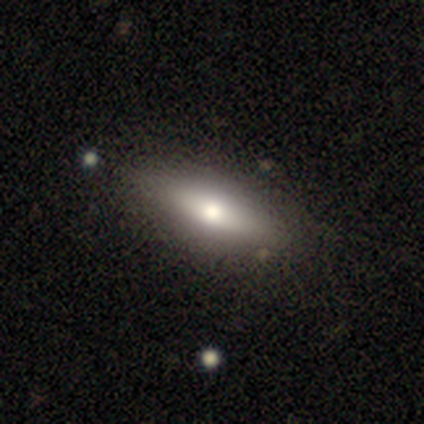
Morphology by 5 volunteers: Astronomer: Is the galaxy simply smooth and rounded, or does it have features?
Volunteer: smooth — 40%, tied with featured or disk at 40%.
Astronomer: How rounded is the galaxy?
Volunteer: in between — 100%.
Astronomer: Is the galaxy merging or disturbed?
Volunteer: minor disturbance — 75%.